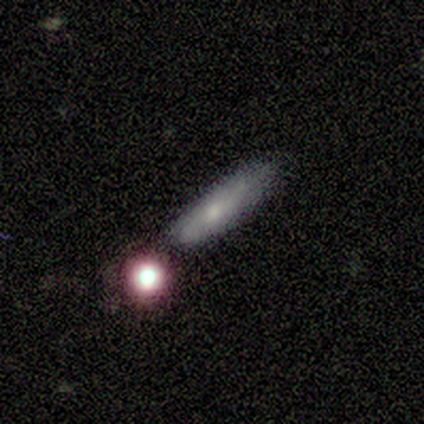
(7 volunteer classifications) Smooth or featured: smooth — 86% (featured or disk — 14%)
How rounded: cigar-shaped — 100%
Merging: none — 71% (minor disturbance — 14%)